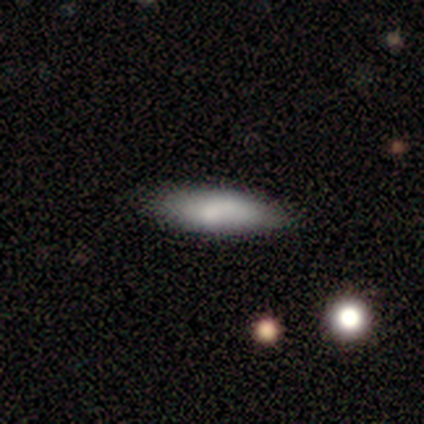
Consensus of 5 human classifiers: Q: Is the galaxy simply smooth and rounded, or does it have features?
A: smooth — 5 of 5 (100%).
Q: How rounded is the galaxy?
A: cigar-shaped — 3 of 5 (60%).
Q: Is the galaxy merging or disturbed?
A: none — 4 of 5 (80%).